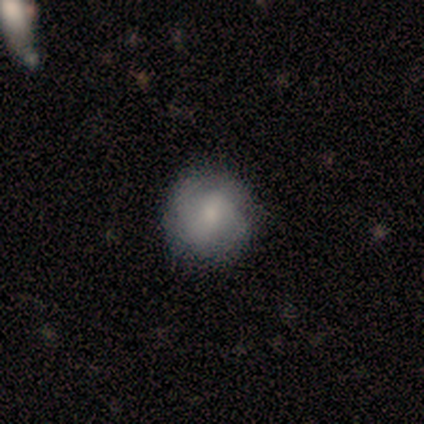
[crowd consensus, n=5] A smooth galaxy with no disk features (80%) that is round (100%). Merging: none (80%).